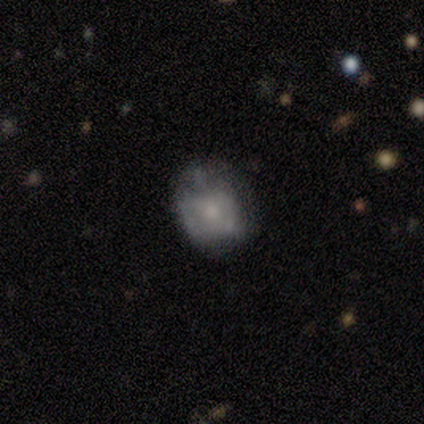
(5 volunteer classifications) smooth-or-featured: smooth: 60% | featured or disk: 40% | star or artifact: 0%
  how-rounded: in between: 67% | round: 33% | cigar-shaped: 0%
  merging: none: 60% | major disturbance: 20% | merger: 20% | minor disturbance: 0%